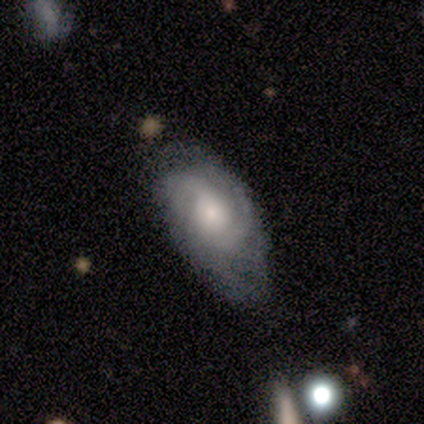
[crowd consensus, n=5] Smooth or featured?
  - featured or disk: 100% *
  - smooth: 0%
  - star or artifact: 0%
Edge-on disk?
  - no: 100% *
  - yes: 0%
Bar?
  - no: 100% *
  - strong: 0%
  - weak: 0%
Spiral arms?
  - yes: 100% *
  - no: 0%
Spiral winding?
  - tight: 80% *
  - loose: 20%
  - medium: 0%
Spiral arm count?
  - 2: 100% *
  - 1: 0%
  - 3: 0%
  - 4: 0%
  - more than 4: 0%
  - can't tell: 0%
Bulge size?
  - moderate: 80% *
  - small: 20%
  - dominant: 0%
  - large: 0%
  - none: 0%
Merging?
  - minor disturbance: 60% *
  - none: 40%
  - major disturbance: 0%
  - merger: 0%